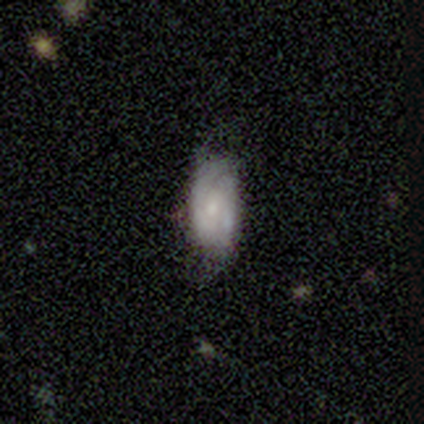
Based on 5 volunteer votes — This appears to be a featured or disk galaxy (80%) with no bar (67%), 2 (100%) tight (100%) spiral arms (67%) and a small central bulge (67%). Merging: none (60%).